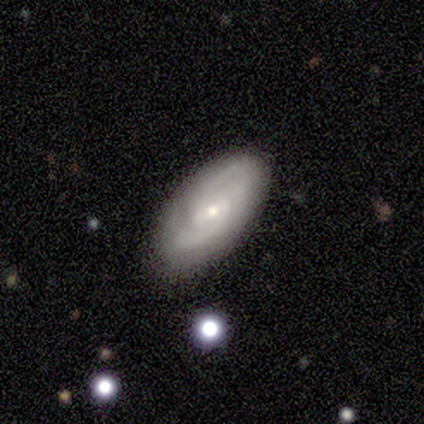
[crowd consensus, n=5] Morphology: type=featured or disk (80%); edge-on=no (100%); bar=weak (50%, tied with no); spiral arms=yes (100%); winding=tight (75%); arm count=2 (50%, tied with can't tell); bulge=small (75%); merging=none (100%).